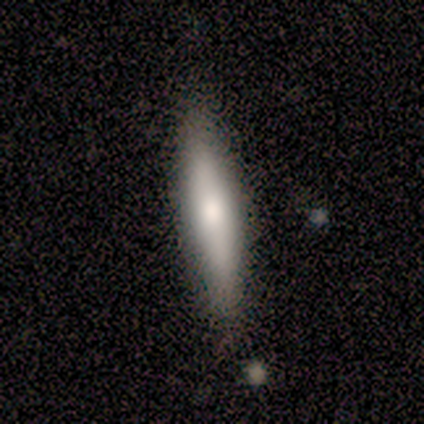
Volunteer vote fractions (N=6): This is clearly a smooth galaxy (83%). How rounded: clearly cigar-shaped (100%). Merging: clearly none (83%).